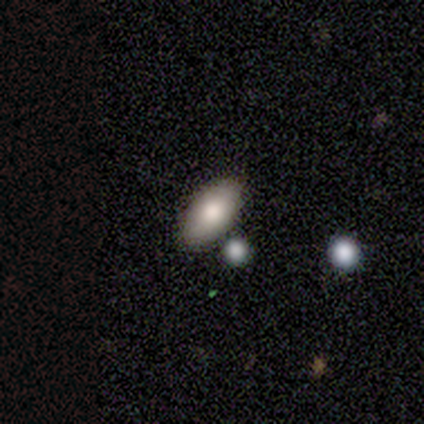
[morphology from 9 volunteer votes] Q: Smooth or featured?
A: smooth (67%); runner-up: featured or disk (22%)
Q: How rounded?
A: in between (100%)
Q: Merging?
A: none (75%); runner-up: minor disturbance (12%)